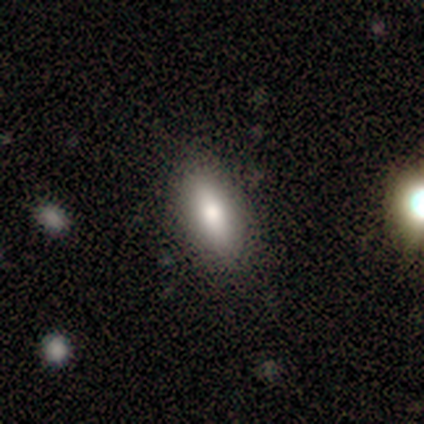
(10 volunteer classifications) This appears to be a smooth galaxy with no disk features (80%) that is in between round and cigar-shaped (62%). Merging: none (80%).